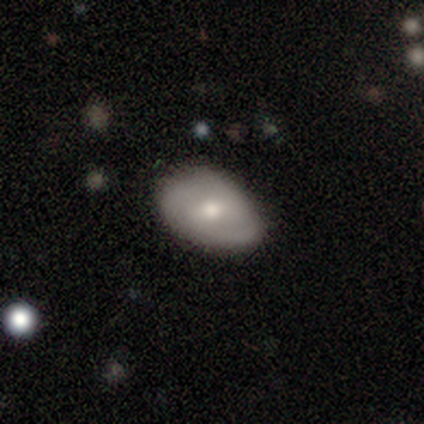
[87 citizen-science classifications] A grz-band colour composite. It shows a smooth galaxy with no disk features (54%) that is in between round and cigar-shaped (87%). Merging: none (69%).